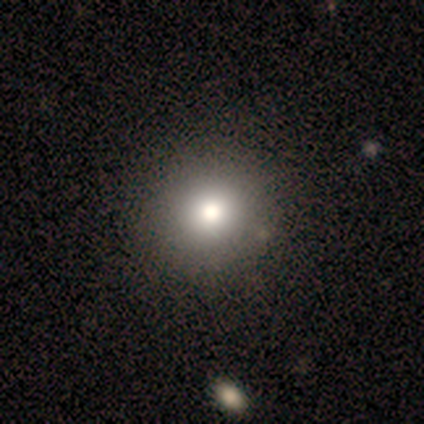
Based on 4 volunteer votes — A smooth galaxy with no disk features (50%, tied with star or artifact) that is round (100%). Merging: none (50%, tied with minor disturbance).